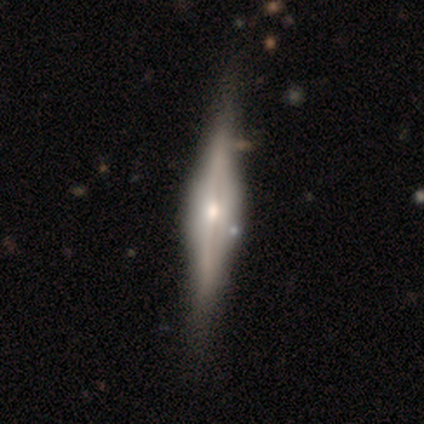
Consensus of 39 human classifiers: Smooth or featured: featured or disk — 85% (smooth — 8%)
Edge-on disk: yes — 94% (no — 6%)
Edge-on bulge: rounded — 52% (boxy — 48%)
Merging: none — 42% (major disturbance — 6%)